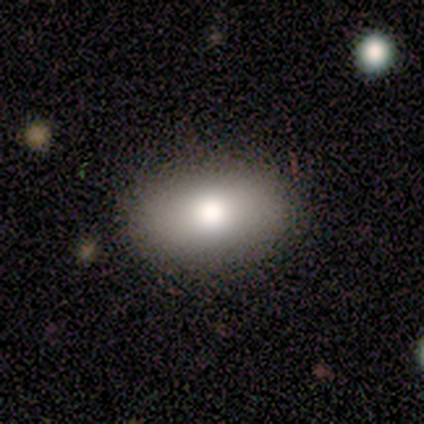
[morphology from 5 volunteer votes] Volunteers were most divided on "how rounded": in between: 75%, round: 25%, cigar-shaped: 0%. More confident: smooth or featured — smooth (80%); merging — none (75%).